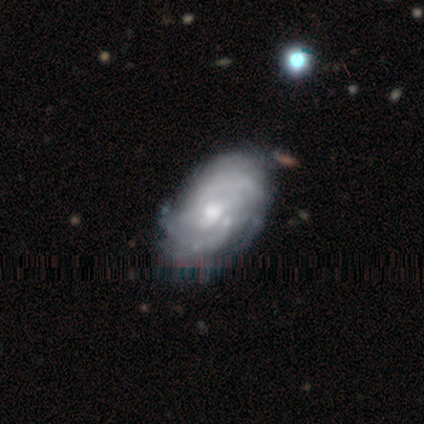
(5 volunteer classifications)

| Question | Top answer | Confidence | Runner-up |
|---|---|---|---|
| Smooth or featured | featured or disk | 100% | — |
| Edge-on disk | no | 100% | — |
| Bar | no | 100% | — |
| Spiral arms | yes | 80% | no (20%) |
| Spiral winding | tight | 100% | — |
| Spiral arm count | can't tell | 75% | more than 4 (25%) |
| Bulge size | moderate | 60% | small (40%) |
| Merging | none | 60% | minor disturbance (40%) |